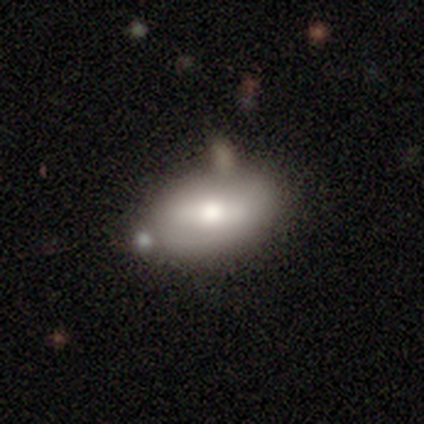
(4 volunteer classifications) A smooth galaxy with no disk features (100%) that is in between round and cigar-shaped (100%).

Vote fractions:
- Smooth or featured? smooth: 100% / featured or disk: 0% / star or artifact: 0%
- How rounded? in between: 100% / round: 0% / cigar-shaped: 0%
- Merging? minor disturbance: 75% / none: 25% / major disturbance: 0% / merger: 0%